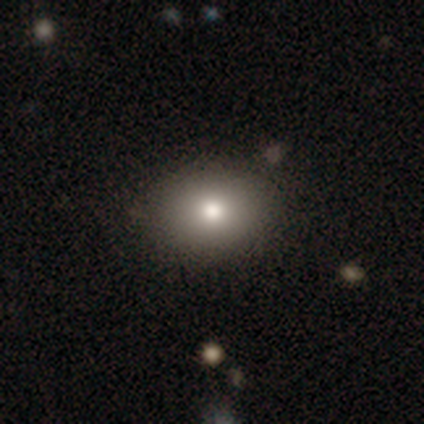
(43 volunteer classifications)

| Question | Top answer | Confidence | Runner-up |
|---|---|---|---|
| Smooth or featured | smooth | 77% | featured or disk (12%) |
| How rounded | in between | 61% | round (39%) |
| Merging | none | 84% | minor disturbance (8%) |